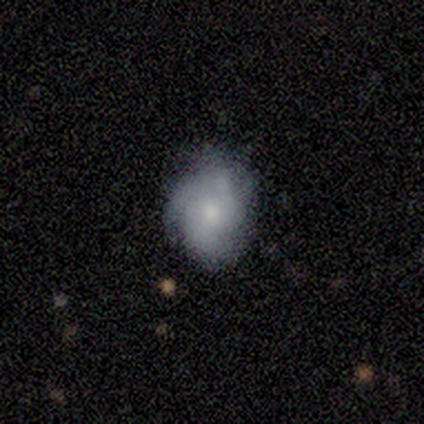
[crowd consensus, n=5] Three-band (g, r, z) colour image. It shows a featured or disk galaxy (80%) with no bar (75%), tight (67%) spiral arms (75%) and a small central bulge (75%). Merging: none (60%).